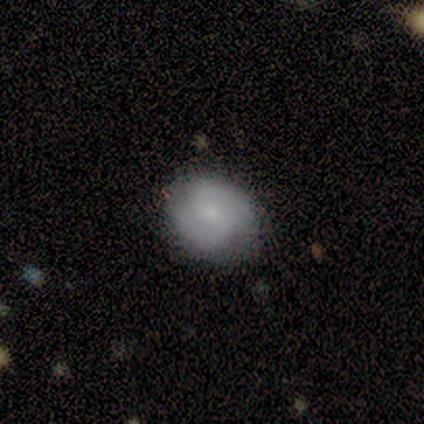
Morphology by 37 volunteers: smooth-or-featured: smooth: 49% | featured or disk: 43% | star or artifact: 8%
  how-rounded: round: 61% | in between: 33% | cigar-shaped: 6%
  merging: none: 88% | minor disturbance: 12% | major disturbance: 0% | merger: 0%